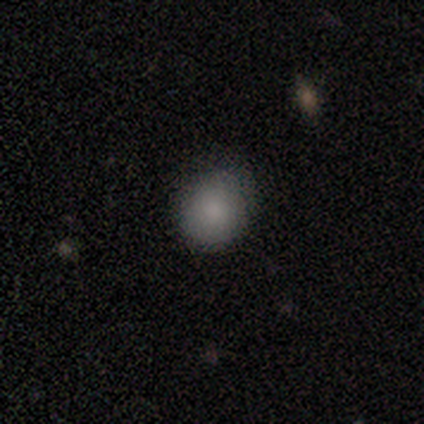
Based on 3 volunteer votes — Q: Smooth or featured?
A: smooth (67%); runner-up: featured or disk (33%)
Q: How rounded?
A: round (100%)
Q: Merging?
A: none (67%); runner-up: minor disturbance (33%)